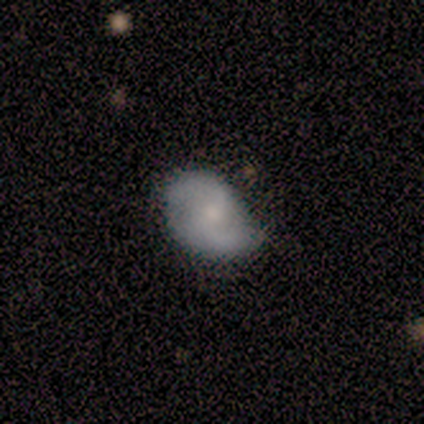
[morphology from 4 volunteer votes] Smooth or featured? 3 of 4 (75%) said featured or disk. Edge-on disk? 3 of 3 (100%) said no. Bar? 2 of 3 (67%) said no. Spiral arms? 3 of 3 (100%) said yes. Spiral winding? 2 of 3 (67%) said loose. Spiral arm count? 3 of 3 (100%) said 2. Bulge size? 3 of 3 (100%) said small. Merging? 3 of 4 (75%) said none.